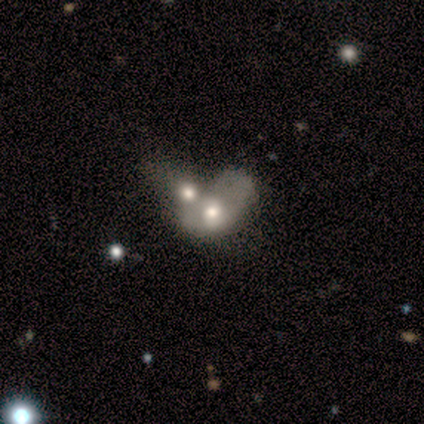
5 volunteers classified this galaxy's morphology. This appears to be a smooth galaxy with no disk features (60%) that is in between round and cigar-shaped (100%). Merging: merger (60%).